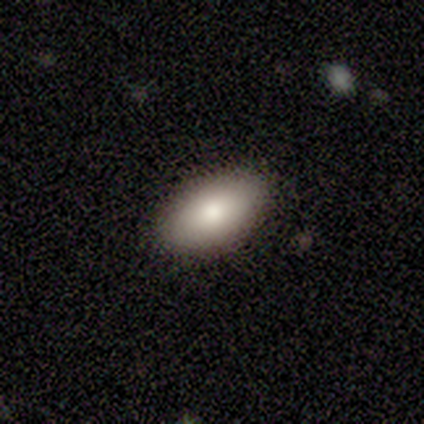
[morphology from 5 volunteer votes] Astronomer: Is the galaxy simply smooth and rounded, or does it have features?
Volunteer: smooth — 80%.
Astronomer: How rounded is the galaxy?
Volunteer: in between — 100%.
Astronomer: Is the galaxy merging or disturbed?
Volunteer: none — 100%.